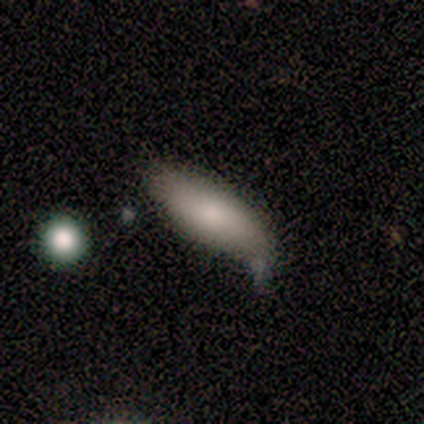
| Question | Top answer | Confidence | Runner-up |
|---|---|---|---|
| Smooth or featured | smooth | 75% | featured or disk (25%) |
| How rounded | in between | 100% | — |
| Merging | minor disturbance | 50% | none (25%) |